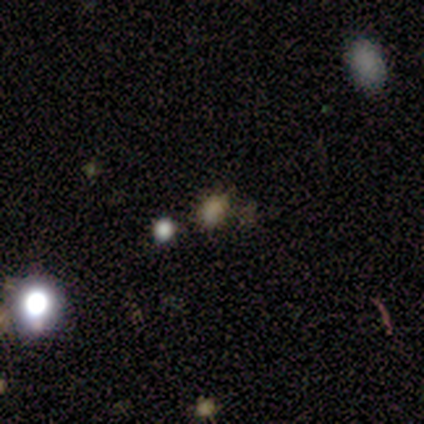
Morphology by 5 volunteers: type=smooth (60%); roundness=in between (67%); merging=none (100%).